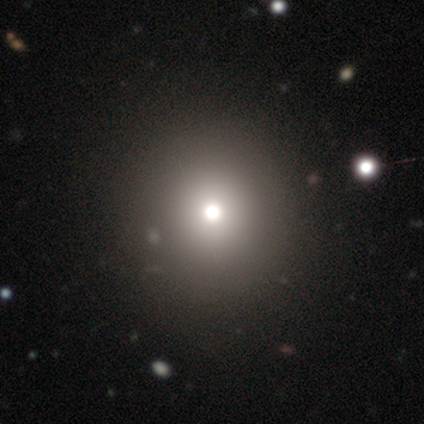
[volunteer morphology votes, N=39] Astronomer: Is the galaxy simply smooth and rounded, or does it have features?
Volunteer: smooth — 62%.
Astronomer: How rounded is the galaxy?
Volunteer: round — 92%.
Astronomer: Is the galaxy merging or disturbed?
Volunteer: none — 68%.